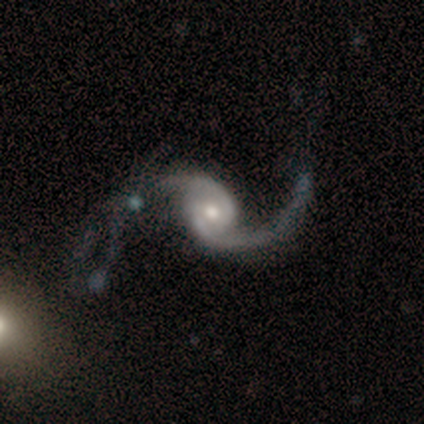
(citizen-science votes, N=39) Q: Smooth or featured?
A: featured or disk (97%); runner-up: smooth (3%)
Q: Edge-on disk?
A: no (100%)
Q: Bar?
A: no (63%); runner-up: weak (32%)
Q: Spiral arms?
A: yes (100%)
Q: Spiral winding?
A: loose (82%); runner-up: medium (18%)
Q: Spiral arm count?
A: 2 (87%); runner-up: 1 (11%)
Q: Bulge size?
A: moderate (53%); runner-up: small (37%)
Q: Merging?
A: major disturbance (36%); runner-up: none (23%)